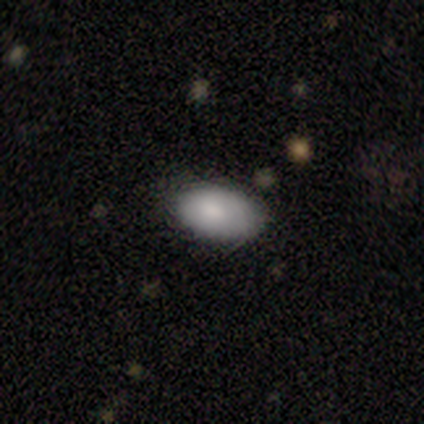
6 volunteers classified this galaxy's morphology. Q: Smooth or featured?
A: smooth (100%)
Q: How rounded?
A: in between (100%)
Q: Merging?
A: none (50%); runner-up: minor disturbance (33%)